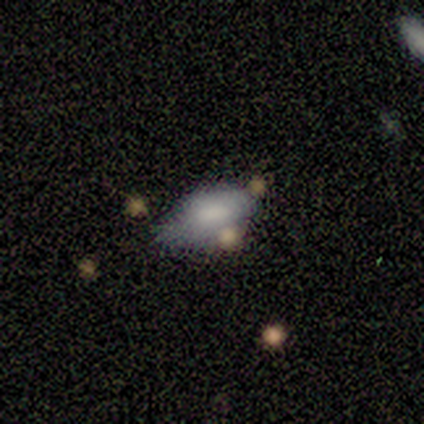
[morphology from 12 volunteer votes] This is possibly a smooth galaxy (58%). How rounded: clearly in between (100%). Merging: possibly none (50%).